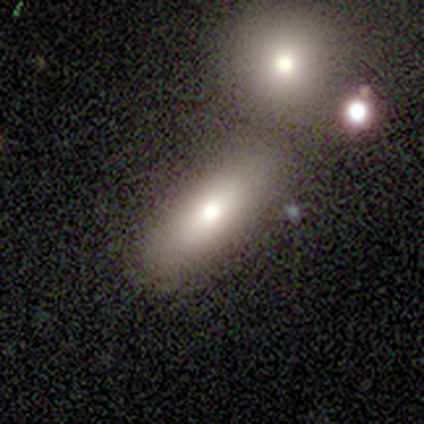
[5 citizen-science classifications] This is clearly a smooth galaxy (80%). How rounded: possibly in between (50%). Merging: clearly none (80%).